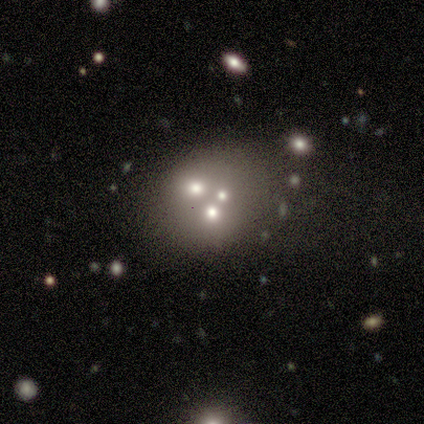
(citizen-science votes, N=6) This is likely a featured or disk galaxy (67%). It is likely not viewed edge-on (75%). Bar: clearly no (100%). Spiral arm pattern: clearly no (100%). Central bulge: marginally moderate (33%, tied with small and none). Merging: marginally none (40%, tied with merger).